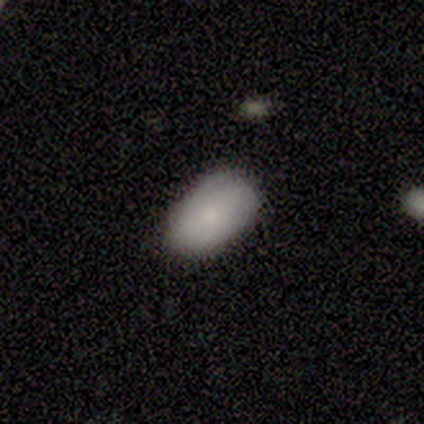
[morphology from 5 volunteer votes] This is clearly a smooth galaxy (80%). How rounded: likely in between (75%). Merging: likely none (60%).